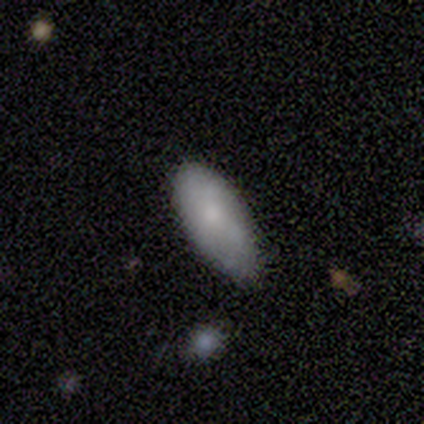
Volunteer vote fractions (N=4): This is likely a smooth galaxy (75%). How rounded: clearly in between (100%). Merging: possibly minor disturbance (50%).